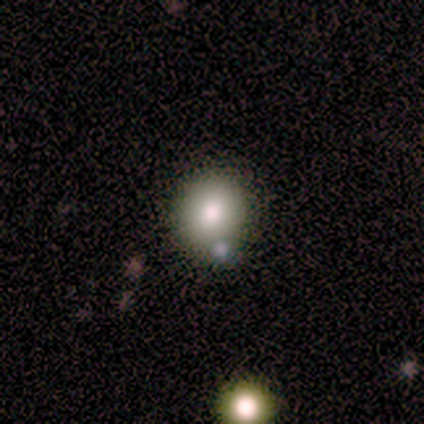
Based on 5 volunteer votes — Morphology: type=star or artifact (60%).